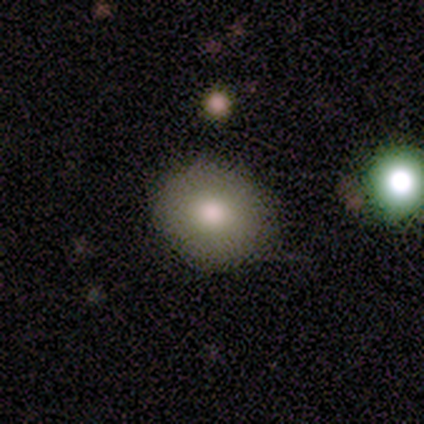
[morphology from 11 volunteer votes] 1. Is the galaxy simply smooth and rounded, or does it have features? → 100% smooth, 0% featured or disk, 0% star or artifact.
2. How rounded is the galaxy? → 91% round, 9% in between, 0% cigar-shaped.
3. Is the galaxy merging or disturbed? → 82% none, 18% minor disturbance, 0% major disturbance, 0% merger.